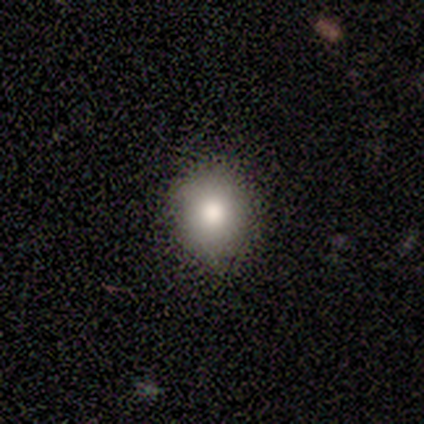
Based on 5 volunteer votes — Smooth or featured? smooth (100%)
How rounded? round (80%)
Merging? none (100%)